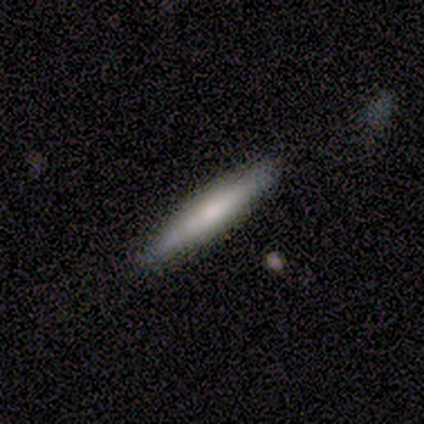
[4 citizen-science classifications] This is possibly a smooth galaxy (50%, tied with featured or disk). How rounded: clearly cigar-shaped (100%). Merging: clearly none (100%).